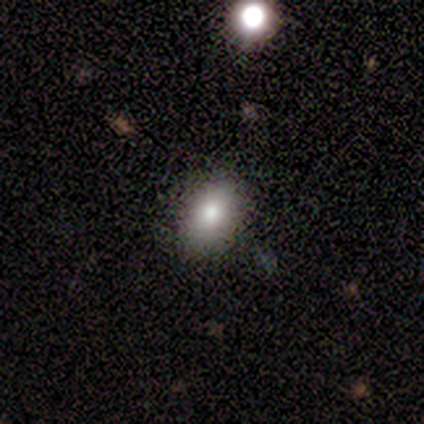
Smooth or featured? smooth (67%)
How rounded? in between (100%)
Merging? none (80%)